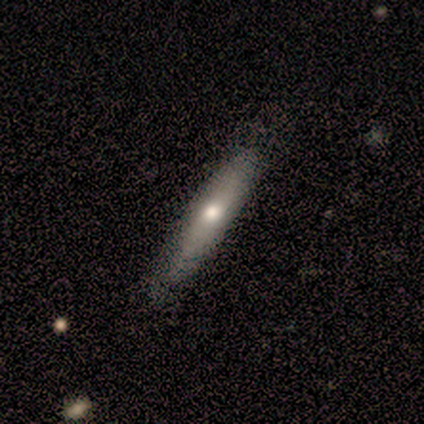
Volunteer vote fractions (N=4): featured or disk 75%, smooth 25%, star or artifact 0%. Down the decision tree: edge-on disk — yes (100%); edge-on bulge — rounded (67%); merging — minor disturbance (50%).